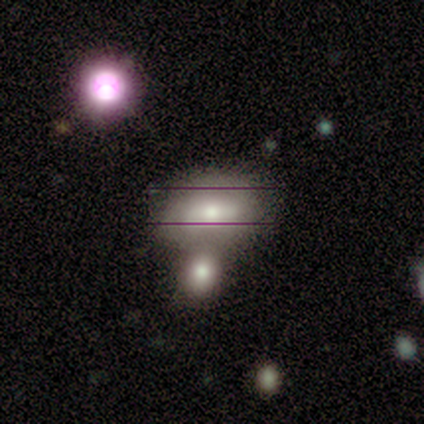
Morphology: type=smooth (50%, tied with featured or disk); roundness=in between (100%); merging=merger (67%).